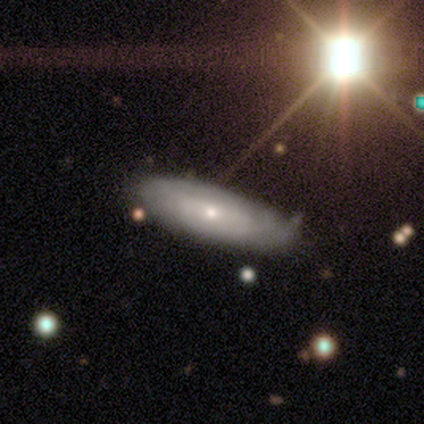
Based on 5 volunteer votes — Smooth or featured: featured or disk — 100%
Edge-on disk: no — 100%
Bar: no — 80% (strong — 20%)
Spiral arms: yes — 60% (no — 40%)
Spiral winding: tight — 67% (loose — 33%)
Spiral arm count: 2 — 33% (tied with 3 — 33%; can't tell — 33%)
Bulge size: moderate — 60% (small — 40%)
Merging: none — 40% (tied with minor disturbance — 40%)